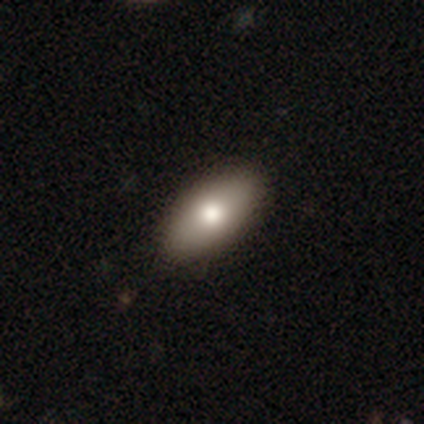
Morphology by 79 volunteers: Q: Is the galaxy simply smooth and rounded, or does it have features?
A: smooth — 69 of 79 (87%).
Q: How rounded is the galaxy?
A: in between — 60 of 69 (87%).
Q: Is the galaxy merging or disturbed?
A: none — 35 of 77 (45%).